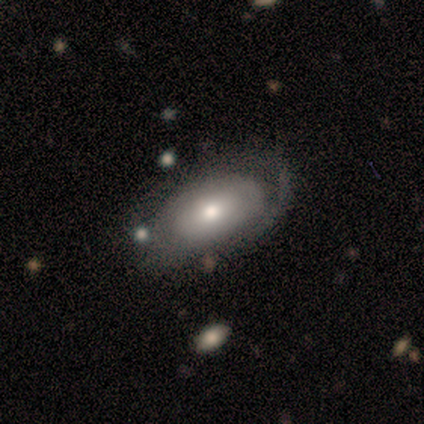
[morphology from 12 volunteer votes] Smooth or featured: featured or disk — 50% (smooth — 42%)
Edge-on disk: no — 83% (yes — 17%)
Bar: no — 100%
Spiral arms: yes — 80% (no — 20%)
Spiral winding: tight — 75% (medium — 25%)
Spiral arm count: can't tell — 75% (1 — 25%)
Bulge size: moderate — 60% (dominant — 20%)
Merging: none — 64% (major disturbance — 27%)